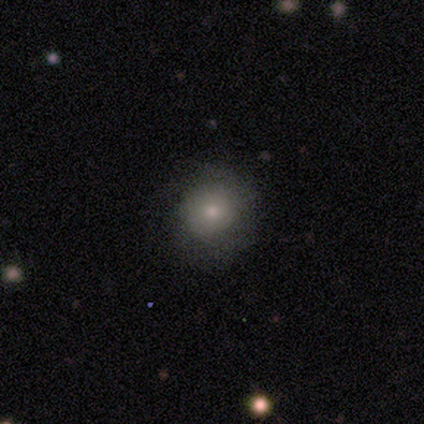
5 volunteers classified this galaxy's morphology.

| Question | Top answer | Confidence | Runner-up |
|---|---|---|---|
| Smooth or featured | smooth | 80% | featured or disk (20%) |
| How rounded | round | 100% | — |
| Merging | none | 60% | minor disturbance (20%) |